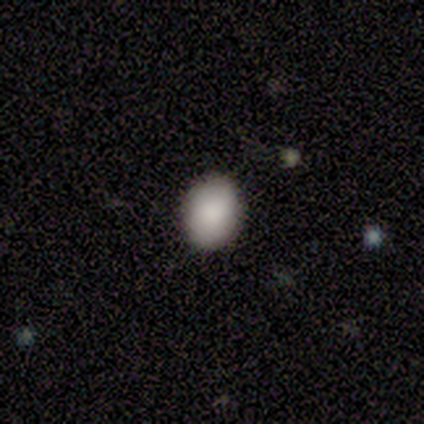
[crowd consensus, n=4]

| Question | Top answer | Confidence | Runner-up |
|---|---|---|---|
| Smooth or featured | smooth | 100% | — |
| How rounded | round | 50% | tied: in between (50%) |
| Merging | none | 100% | — |